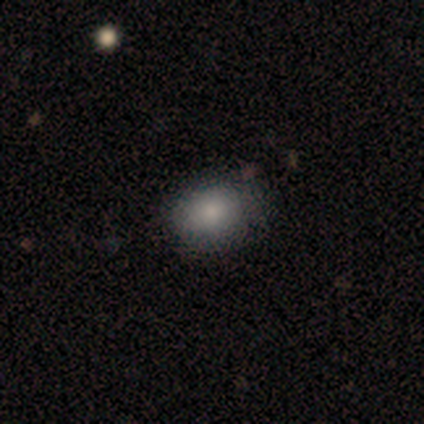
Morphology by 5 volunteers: smooth_or_featured: smooth (p=0.80) [alt: featured or disk p=0.20]
how_rounded: in between (p=0.75) [alt: round p=0.25]
merging: none (p=1.00)